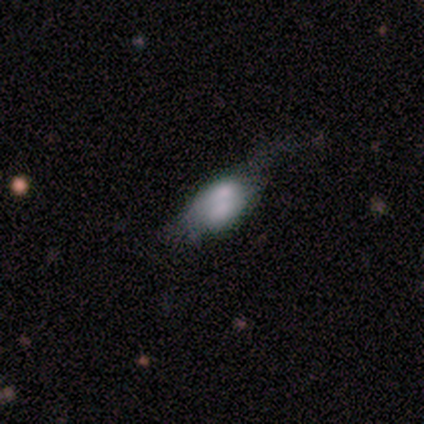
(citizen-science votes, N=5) smooth 60%, featured or disk 20%, star or artifact 20%. Down the decision tree: how rounded — in between (100%); merging — none (25%, tied with minor disturbance, major disturbance and merger).